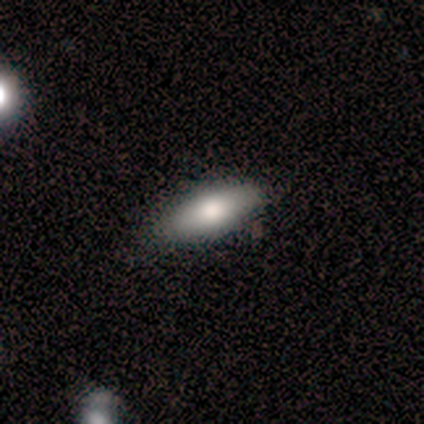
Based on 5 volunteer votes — This appears to be a smooth galaxy with no disk features (60%) that is in between round and cigar-shaped (67%). Merging: minor disturbance (60%).